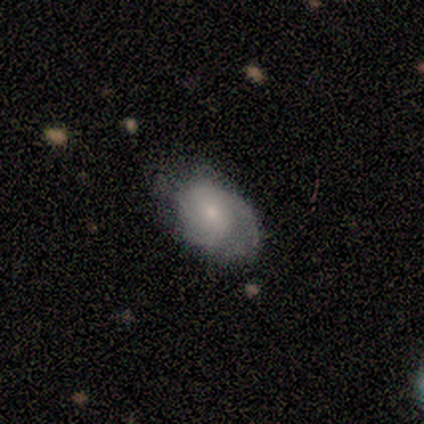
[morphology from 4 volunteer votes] Smooth or featured? 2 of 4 (50%, tied with featured or disk) said smooth. How rounded? 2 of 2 (100%) said in between. Merging? 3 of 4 (75%) said none.